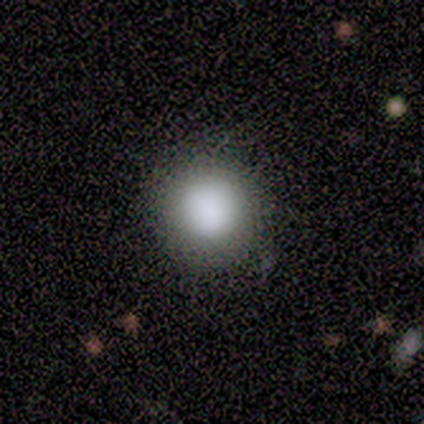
smooth-or-featured: smooth: 86% | star or artifact: 14% | featured or disk: 0%
  how-rounded: round: 92% | in between: 8% | cigar-shaped: 0%
  merging: none: 83% | minor disturbance: 8% | major disturbance: 8% | merger: 0%